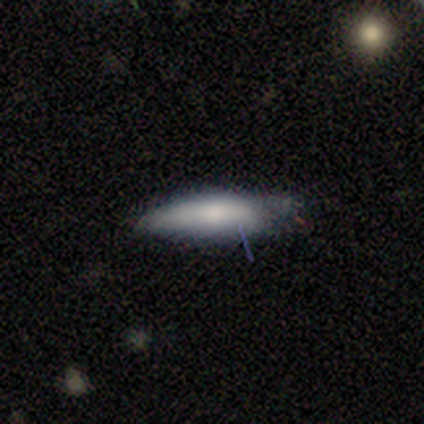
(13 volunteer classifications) smooth-or-featured: smooth: 69% | featured or disk: 23% | star or artifact: 8%
  how-rounded: cigar-shaped: 78% | in between: 22% | round: 0%
  merging: none: 58% | minor disturbance: 33% | major disturbance: 8% | merger: 0%